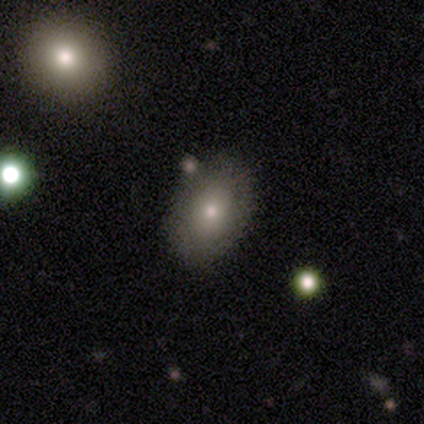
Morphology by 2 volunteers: smooth-or-featured: smooth: 50% (tied) | featured or disk: 50% (tied) | star or artifact: 0%
  how-rounded: round: 100% | in between: 0% | cigar-shaped: 0%
  merging: none: 100% | minor disturbance: 0% | major disturbance: 0% | merger: 0%